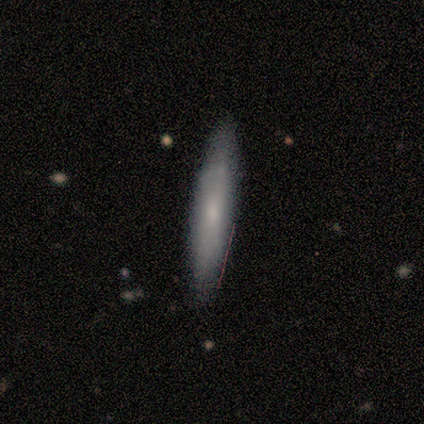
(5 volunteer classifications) smooth 60%, featured or disk 20%, star or artifact 20%. Down the decision tree: how rounded — cigar-shaped (100%); merging — none (100%).